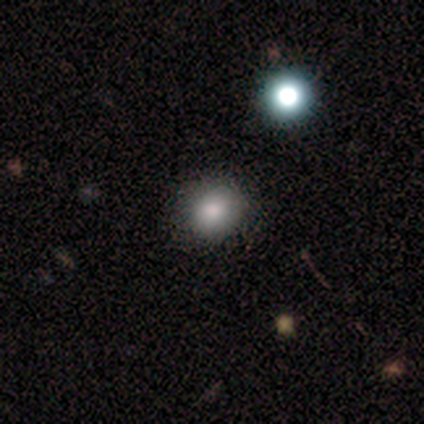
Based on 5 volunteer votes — Smooth or featured? 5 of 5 (100%) said smooth. How rounded? 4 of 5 (80%) said round. Merging? 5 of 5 (100%) said none.